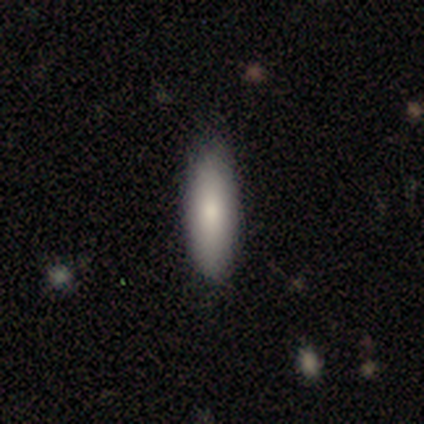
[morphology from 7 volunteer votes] Smooth or featured? 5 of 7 (71%) said smooth. How rounded? 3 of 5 (60%) said in between. Merging? 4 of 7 (57%) said none.